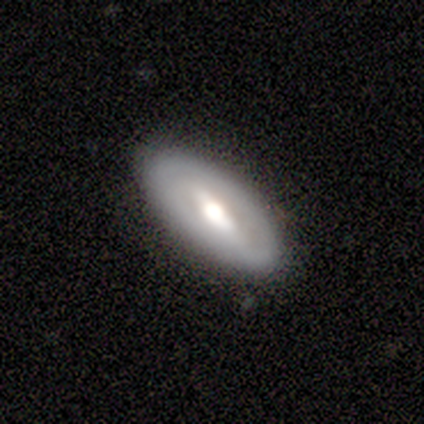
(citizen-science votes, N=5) Overall: featured or disk (80%). Edge-on disk: no (100%). Bar: strong (50%, tied with weak). Spiral arms: no (75%). Bulge size: moderate (75%). Merging: none (100%).